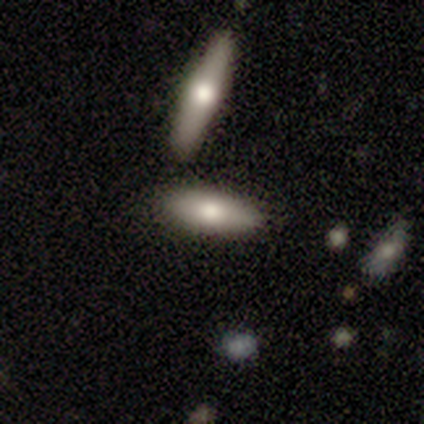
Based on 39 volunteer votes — Smooth or featured? smooth (64%)
How rounded? in between (52%)
Merging? none (62%)